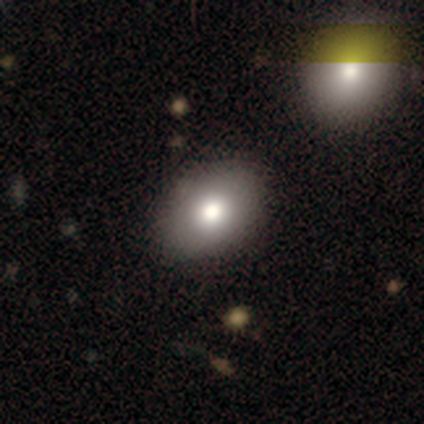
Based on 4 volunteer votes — smooth_or_featured: smooth (p=0.75) [alt: featured or disk p=0.25]
how_rounded: in between (p=1.00)
merging: none (p=1.00)